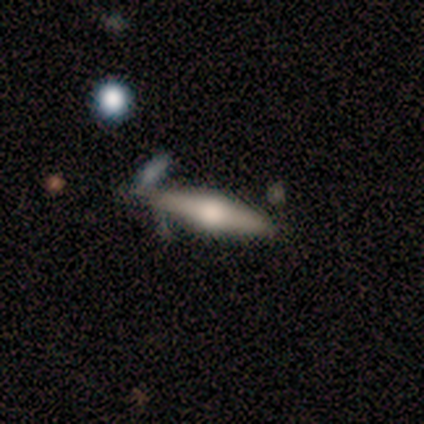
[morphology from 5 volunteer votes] featured or disk 80%, smooth 20%, star or artifact 0%. Down the decision tree: edge-on disk — yes (100%); edge-on bulge — rounded (75%); merging — minor disturbance (60%).